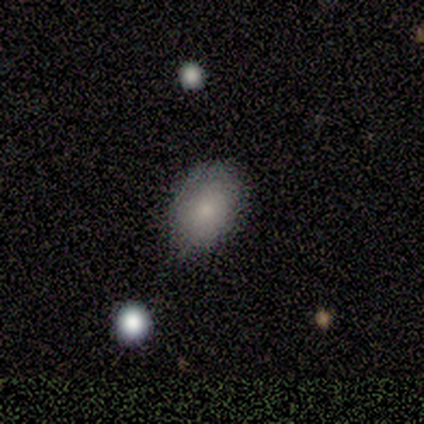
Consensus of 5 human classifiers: Morphology: type=smooth (80%); roundness=in between (100%); merging=none (50%, tied with minor disturbance).